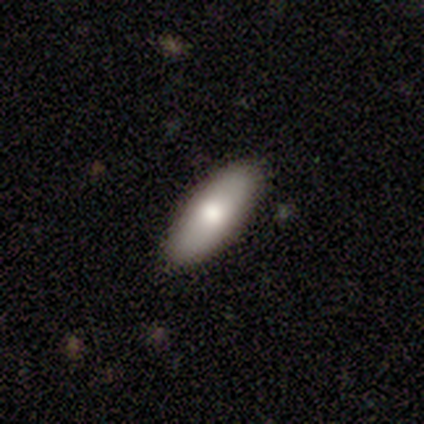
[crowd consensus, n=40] Smooth or featured: smooth — 72% (featured or disk — 22%)
How rounded: in between — 72% (cigar-shaped — 28%)
Merging: none — 95% (minor disturbance — 5%)